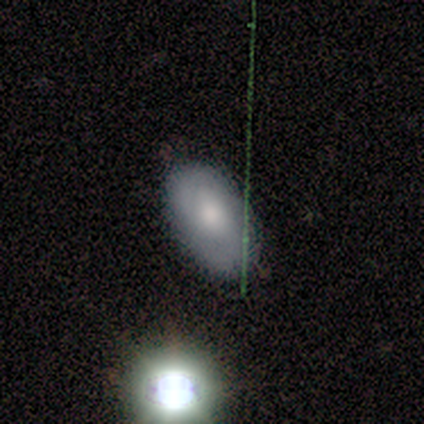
smooth-or-featured: smooth: 80% | star or artifact: 20% | featured or disk: 0%
  how-rounded: in between: 100% | round: 0% | cigar-shaped: 0%
  merging: none: 100% | minor disturbance: 0% | major disturbance: 0% | merger: 0%